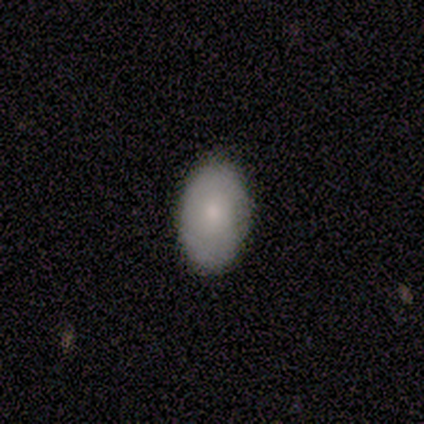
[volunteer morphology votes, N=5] smooth_or_featured: smooth (p=0.60) [alt: featured or disk p=0.40]
how_rounded: in between (p=1.00)
merging: none (p=1.00)